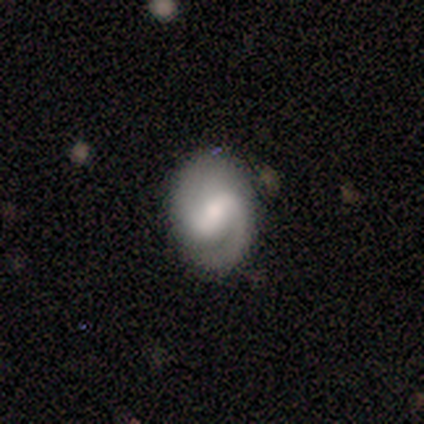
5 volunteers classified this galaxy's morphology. Smooth or featured? featured or disk (60%)
Edge-on disk? no (100%)
Bar? weak (100%)
Spiral arms? yes (100%)
Spiral winding? tight (33%, tied with medium and loose)
Spiral arm count? 2 (100%)
Bulge size? small (100%)
Merging? none (60%)